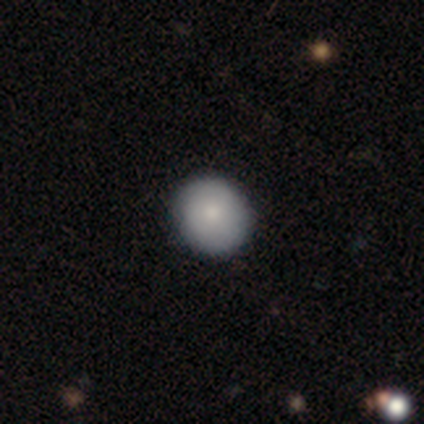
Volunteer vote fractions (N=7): Morphology: type=smooth (71%); roundness=round (100%); merging=none (100%).